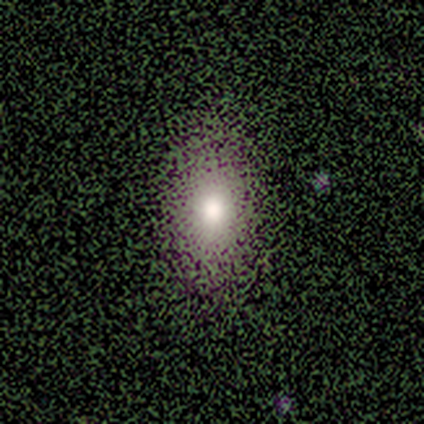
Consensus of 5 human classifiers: smooth_or_featured: smooth (p=0.80) [alt: star or artifact p=0.20]
how_rounded: in between (p=1.00)
merging: none (p=1.00)